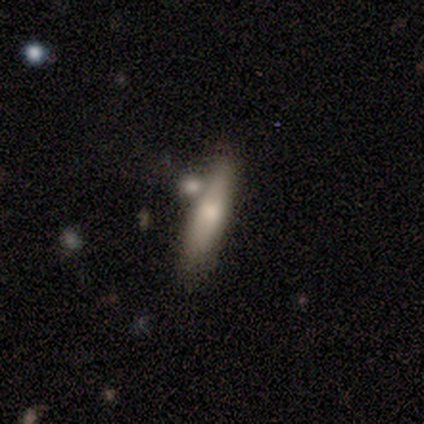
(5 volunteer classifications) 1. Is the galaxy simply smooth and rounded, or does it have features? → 100% smooth, 0% featured or disk, 0% star or artifact.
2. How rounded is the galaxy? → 80% cigar-shaped, 20% in between, 0% round.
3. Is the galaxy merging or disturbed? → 80% none, 20% minor disturbance, 0% major disturbance, 0% merger.